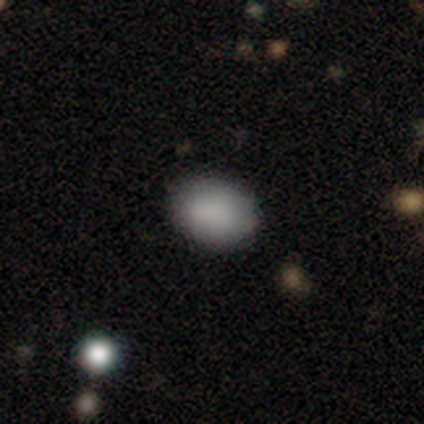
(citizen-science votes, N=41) smooth_or_featured: smooth (p=0.85) [alt: star or artifact p=0.10]
how_rounded: in between (p=0.66) [alt: round p=0.34]
merging: none (p=0.84) [alt: minor disturbance p=0.14]